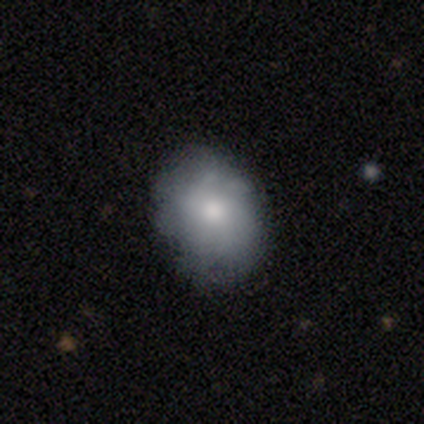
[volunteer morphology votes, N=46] Smooth or featured: smooth — 78% (featured or disk — 15%)
How rounded: in between — 61% (round — 33%)
Merging: none — 88% (minor disturbance — 9%)